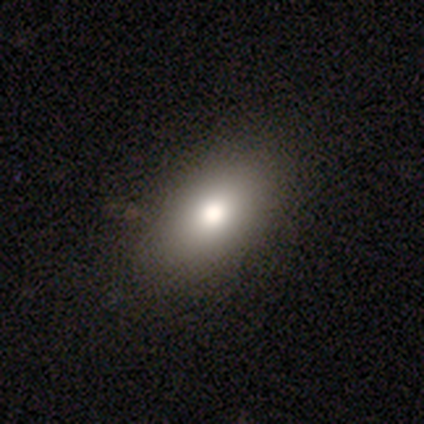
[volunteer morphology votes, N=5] A smooth galaxy with no disk features (40%, tied with star or artifact) that is in between round and cigar-shaped (100%). Merging: none (100%).